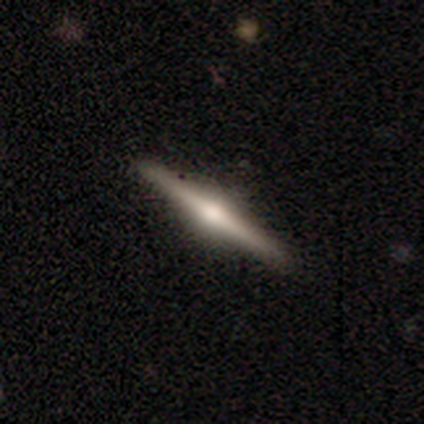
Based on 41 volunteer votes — smooth_or_featured: featured or disk (p=0.83) [alt: smooth p=0.15]
disk_edge_on: yes (p=1.00)
edge_on_bulge: rounded (p=0.91) [alt: boxy p=0.06]
merging: none (p=0.88) [alt: minor disturbance p=0.10]